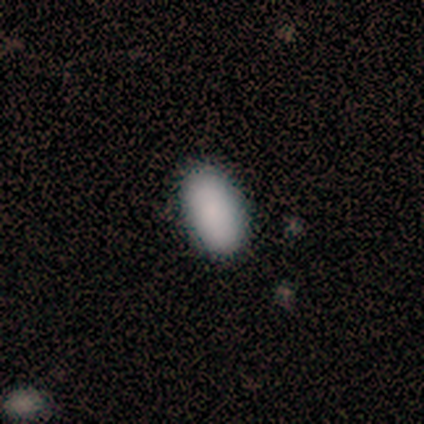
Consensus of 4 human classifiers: Consensus on every question: smooth or featured — smooth (100%); how rounded — in between (100%); merging — none (100%).